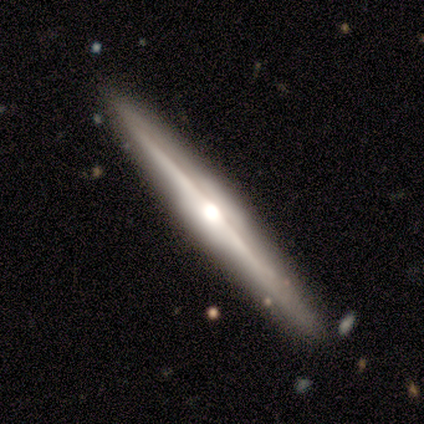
Morphology: type=featured or disk (84%); edge-on=yes (100%); edge-on bulge=rounded (85%); merging=none (79%).